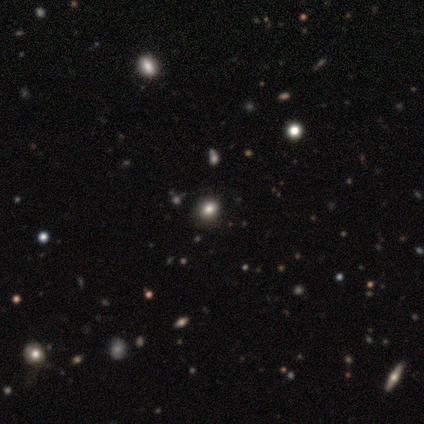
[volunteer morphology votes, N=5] Smooth or featured? smooth (60%)
How rounded? round (67%)
Merging? none (67%)